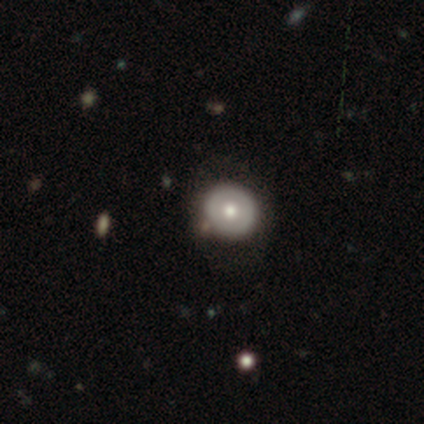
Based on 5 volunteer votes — Overall: featured or disk (60%; smooth 40%). Edge-on disk: no (67%; yes 33%). Bar: weak (50%, tied with no). Spiral arms: no (100%). Bulge size: moderate (100%). Merging: none (80%).